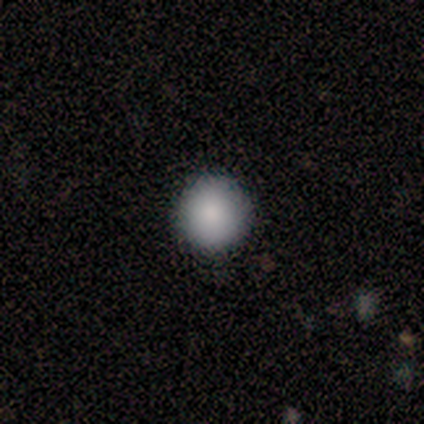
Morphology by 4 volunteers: smooth_or_featured: smooth (p=1.00)
how_rounded: round (p=1.00)
merging: none (p=1.00)